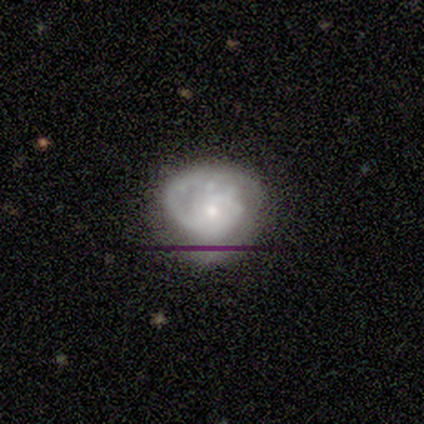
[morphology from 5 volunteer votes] Smooth or featured?
  - featured or disk: 40% * (tied)
  - star or artifact: 40% * (tied)
  - smooth: 20%
Edge-on disk?
  - no: 100% *
  - yes: 0%
Bar?
  - no: 100% *
  - strong: 0%
  - weak: 0%
Spiral arms?
  - yes: 100% *
  - no: 0%
Spiral winding?
  - tight: 100% *
  - medium: 0%
  - loose: 0%
Spiral arm count?
  - 3: 50% * (tied)
  - can't tell: 50% * (tied)
  - 1: 0%
  - 2: 0%
  - 4: 0%
  - more than 4: 0%
Bulge size?
  - moderate: 50% * (tied)
  - small: 50% * (tied)
  - dominant: 0%
  - large: 0%
  - none: 0%
Merging?
  - none: 67% *
  - minor disturbance: 33%
  - major disturbance: 0%
  - merger: 0%